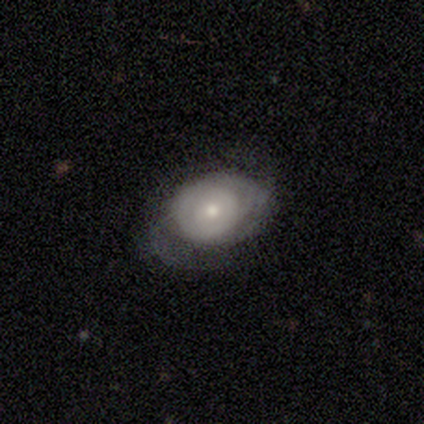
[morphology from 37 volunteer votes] Overall: featured or disk (65%; smooth 30%). Edge-on disk: no (96%). Bar: no (91%). Spiral arms: yes (65%; no 35%). Spiral arm count: can't tell (40%; 1 20%). Spiral winding: tight (53%; medium 27%). Bulge size: small (52%; moderate 39%). Merging: none (34%, tied with minor disturbance).